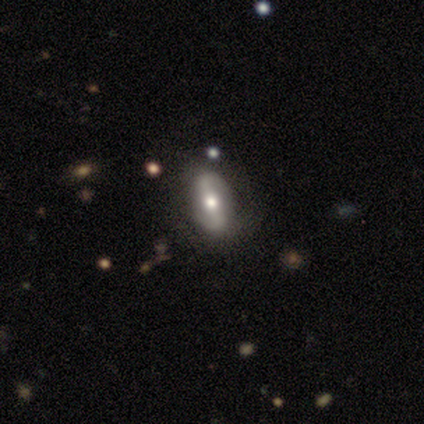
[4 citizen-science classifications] Q: Smooth or featured?
A: smooth (75%); runner-up: featured or disk (25%)
Q: How rounded?
A: in between (100%)
Q: Merging?
A: none (100%)